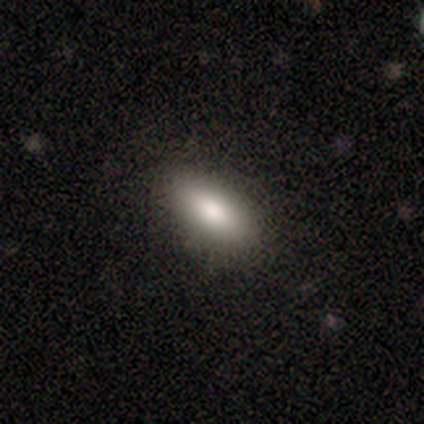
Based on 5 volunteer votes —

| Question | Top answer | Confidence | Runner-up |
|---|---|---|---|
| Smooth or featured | smooth | 100% | — |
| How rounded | in between | 100% | — |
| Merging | none | 80% | minor disturbance (20%) |